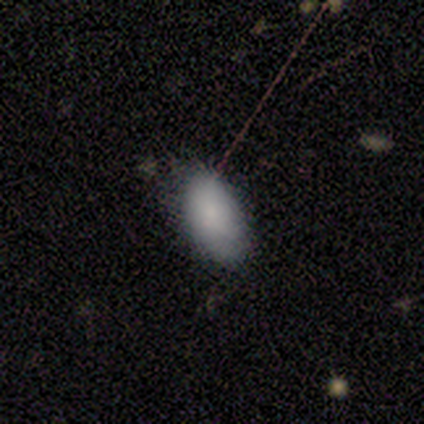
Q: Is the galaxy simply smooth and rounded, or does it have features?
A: smooth — 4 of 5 (80%).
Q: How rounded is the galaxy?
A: in between — 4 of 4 (100%).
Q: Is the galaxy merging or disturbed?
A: none — 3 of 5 (60%).